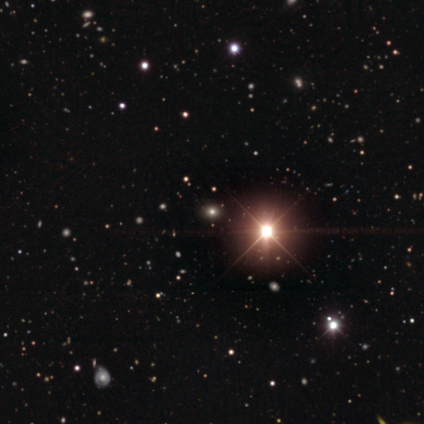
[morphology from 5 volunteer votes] Smooth or featured? 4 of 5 (80%) said star or artifact.